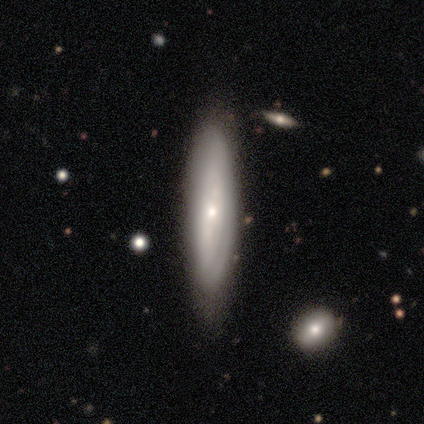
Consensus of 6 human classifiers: Smooth or featured? 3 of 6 (50%, tied with featured or disk) said smooth. How rounded? 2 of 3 (67%) said cigar-shaped. Merging? 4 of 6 (67%) said none.